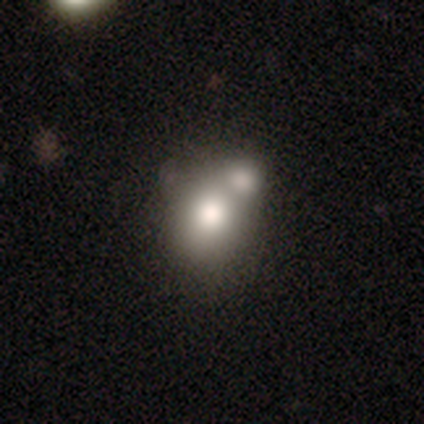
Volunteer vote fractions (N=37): Smooth or featured: smooth — 65% (featured or disk — 30%)
How rounded: round — 71% (in between — 29%)
Merging: merger — 77% (none — 17%)